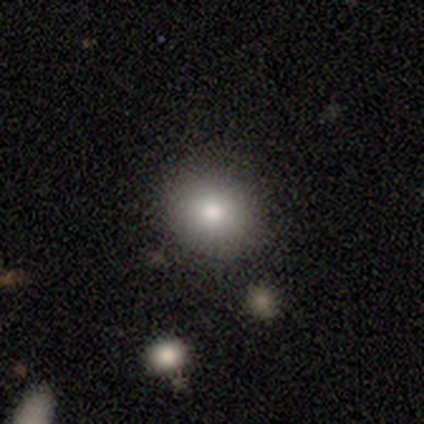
A smooth galaxy with no disk features (81%) that is round (85%).

Vote fractions:
- Smooth or featured? smooth: 81% / star or artifact: 12% / featured or disk: 7%
- How rounded? round: 85% / in between: 15% / cigar-shaped: 0%
- Merging? none: 89% / minor disturbance: 6% / major disturbance: 4% / merger: 1%